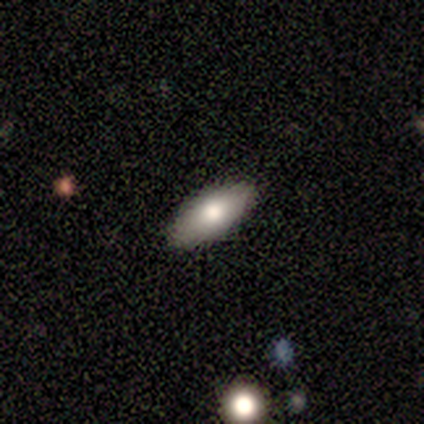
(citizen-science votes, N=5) Overall: smooth (80%). How rounded: in between (100%). Merging: none (100%).